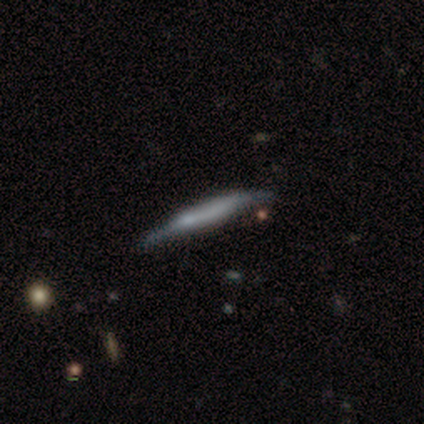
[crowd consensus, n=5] Smooth or featured: smooth — 100%
How rounded: cigar-shaped — 100%
Merging: minor disturbance — 60% (none — 40%)